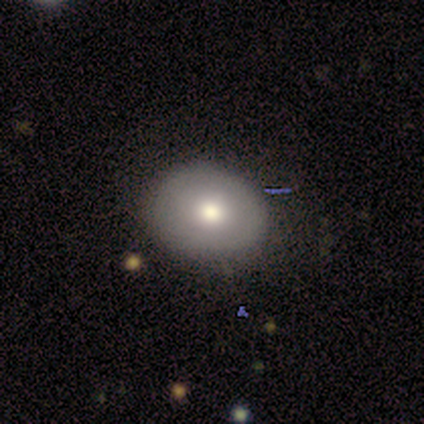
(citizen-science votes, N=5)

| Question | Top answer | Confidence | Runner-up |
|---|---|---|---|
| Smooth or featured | smooth | 80% | star or artifact (20%) |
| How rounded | in between | 100% | — |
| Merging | none | 100% | — |